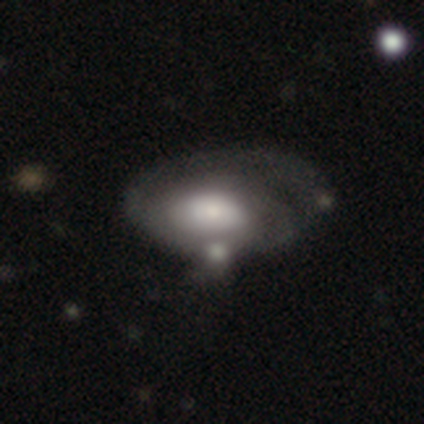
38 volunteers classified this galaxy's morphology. This is likely a featured or disk galaxy (66%). It is clearly not viewed edge-on (100%). Bar: clearly no (84%). Spiral arm pattern: likely yes (72%). Spiral arm count: possibly can't tell (50%). Spiral winding: possibly tight (50%). Central bulge: marginally moderate (44%). Merging: marginally major disturbance (32%).